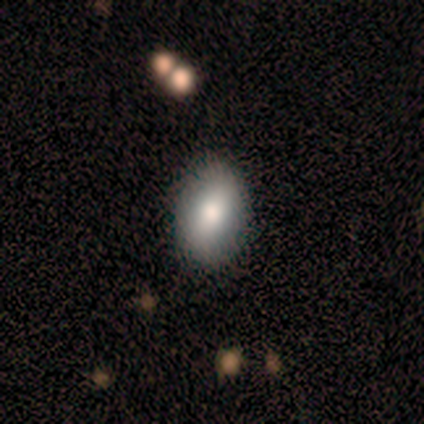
This appears to be a smooth galaxy with no disk features (60%) that is in between round and cigar-shaped (100%). Merging: none (100%).